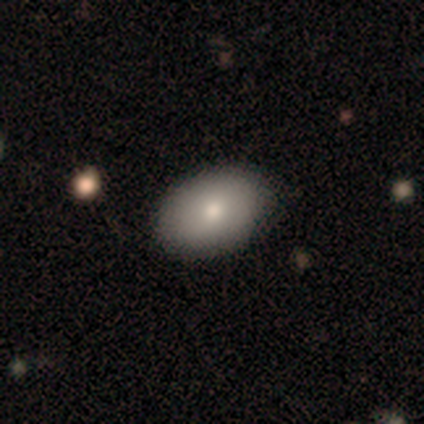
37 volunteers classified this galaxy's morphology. smooth 86%, featured or disk 11%, star or artifact 3%. Down the decision tree: how rounded — in between (84%); merging — none (67%).